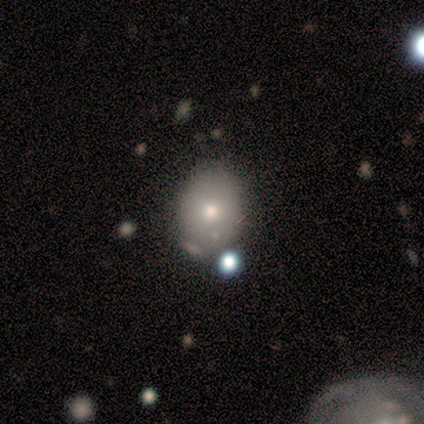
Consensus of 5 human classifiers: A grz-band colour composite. It shows a smooth galaxy with no disk features (60%) that is in between round and cigar-shaped (100%). Merging: none (40%, tied with minor disturbance).